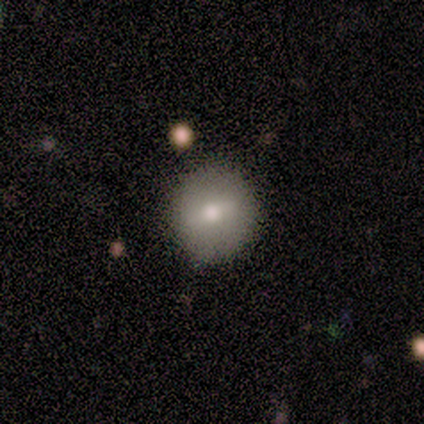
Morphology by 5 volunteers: Smooth or featured? 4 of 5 (80%) said smooth. How rounded? 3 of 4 (75%) said round. Merging? 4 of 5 (80%) said none.